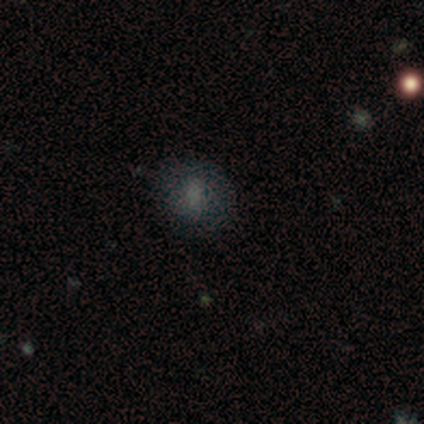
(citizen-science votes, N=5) This appears to be a smooth galaxy with no disk features (80%) that is round (100%). Merging: none (80%).